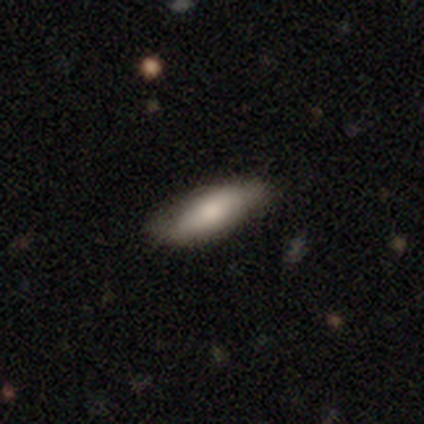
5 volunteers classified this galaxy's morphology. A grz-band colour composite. It shows a smooth galaxy with no disk features (100%) that is in between round and cigar-shaped (80%). Merging: minor disturbance (60%).